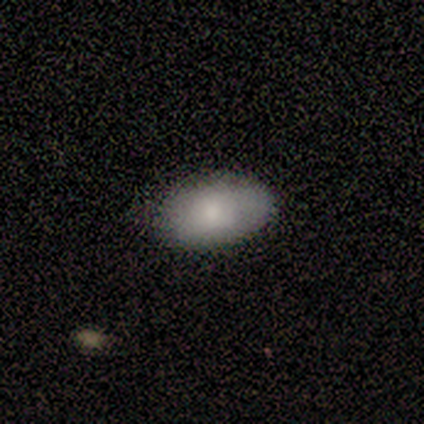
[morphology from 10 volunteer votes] Smooth or featured?
  - smooth: 100% *
  - featured or disk: 0%
  - star or artifact: 0%
How rounded?
  - in between: 90% *
  - round: 10%
  - cigar-shaped: 0%
Merging?
  - none: 80% *
  - minor disturbance: 20%
  - major disturbance: 0%
  - merger: 0%